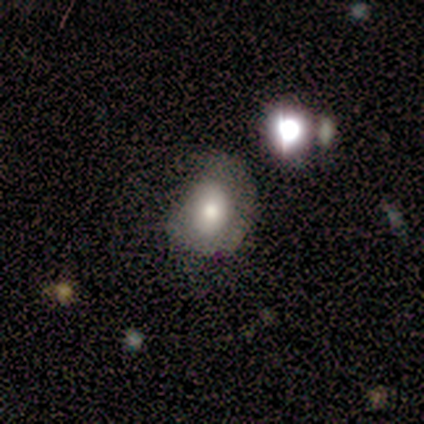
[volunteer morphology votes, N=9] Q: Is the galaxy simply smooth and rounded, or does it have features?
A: smooth — 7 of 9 (78%).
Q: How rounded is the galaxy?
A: in between — 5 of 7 (71%).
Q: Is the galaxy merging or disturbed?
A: none — 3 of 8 (38%, tied with minor disturbance).